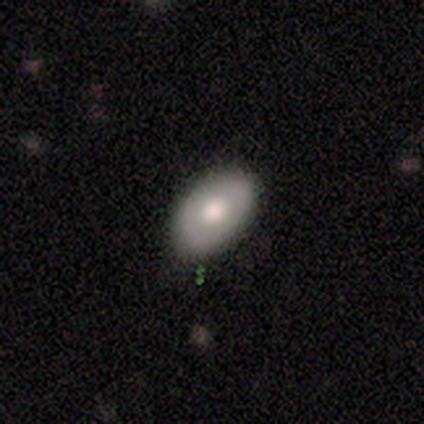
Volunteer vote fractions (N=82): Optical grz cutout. It shows a smooth galaxy with no disk features (76%) that is in between round and cigar-shaped (85%). Merging: none (86%).